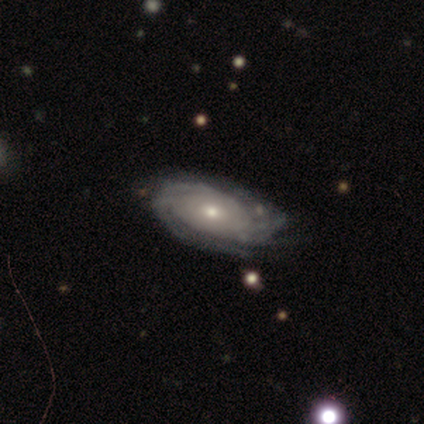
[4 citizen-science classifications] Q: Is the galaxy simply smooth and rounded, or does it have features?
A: featured or disk — 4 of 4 (100%).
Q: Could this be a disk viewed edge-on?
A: no — 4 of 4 (100%).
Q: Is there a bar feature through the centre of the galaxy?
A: weak — 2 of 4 (50%, tied with no).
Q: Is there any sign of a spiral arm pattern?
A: yes — 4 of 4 (100%).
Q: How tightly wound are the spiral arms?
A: tight — 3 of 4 (75%).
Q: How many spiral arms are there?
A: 1 — 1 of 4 (25%, tied with 3, more than 4 and can't tell).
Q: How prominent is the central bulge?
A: small — 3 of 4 (75%).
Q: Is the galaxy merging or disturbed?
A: none — 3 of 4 (75%).